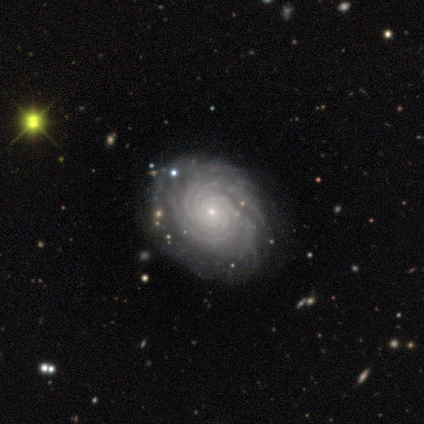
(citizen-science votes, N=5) Smooth or featured?
  - featured or disk: 100% *
  - smooth: 0%
  - star or artifact: 0%
Edge-on disk?
  - no: 100% *
  - yes: 0%
Bar?
  - no: 100% *
  - strong: 0%
  - weak: 0%
Spiral arms?
  - yes: 100% *
  - no: 0%
Spiral winding?
  - tight: 100% *
  - medium: 0%
  - loose: 0%
Spiral arm count?
  - more than 4: 80% *
  - 4: 20%
  - 1: 0%
  - 2: 0%
  - 3: 0%
  - can't tell: 0%
Bulge size?
  - small: 100% *
  - dominant: 0%
  - large: 0%
  - moderate: 0%
  - none: 0%
Merging?
  - none: 100% *
  - minor disturbance: 0%
  - major disturbance: 0%
  - merger: 0%